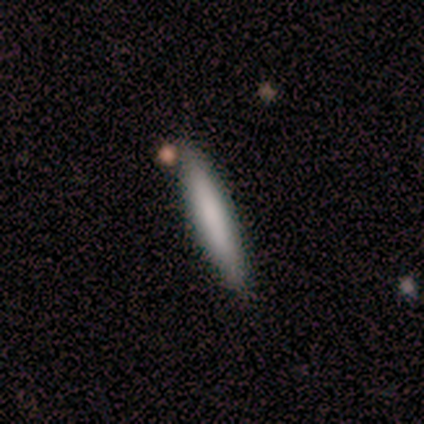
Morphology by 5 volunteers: smooth-or-featured: smooth: 80% | featured or disk: 20% | star or artifact: 0%
  how-rounded: cigar-shaped: 100% | round: 0% | in between: 0%
  merging: none: 80% | merger: 20% | minor disturbance: 0% | major disturbance: 0%